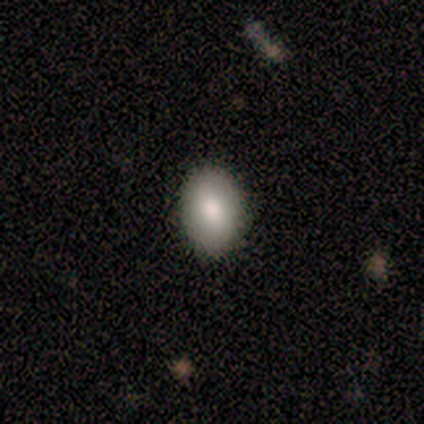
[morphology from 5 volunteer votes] Smooth or featured? smooth (100%)
How rounded? in between (100%)
Merging? none (100%)